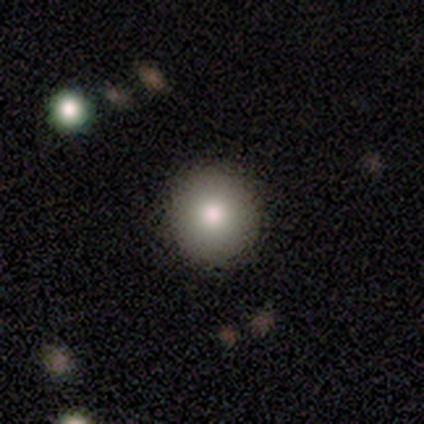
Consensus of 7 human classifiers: smooth_or_featured: smooth (p=0.86) [alt: featured or disk p=0.14]
how_rounded: round (p=1.00)
merging: none (p=1.00)